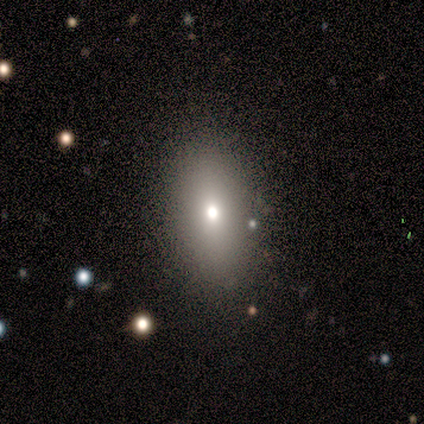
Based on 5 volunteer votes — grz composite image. It shows a smooth galaxy with no disk features (60%) that is in between round and cigar-shaped (100%). Merging: none (75%).